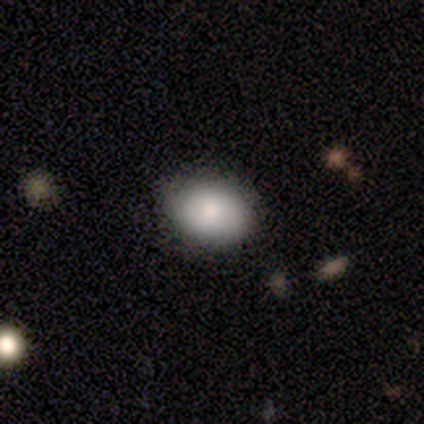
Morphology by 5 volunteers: smooth-or-featured: smooth: 80% | featured or disk: 20% | star or artifact: 0%
  how-rounded: round: 50% (tied) | in between: 50% (tied) | cigar-shaped: 0%
  merging: none: 80% | major disturbance: 20% | minor disturbance: 0% | merger: 0%